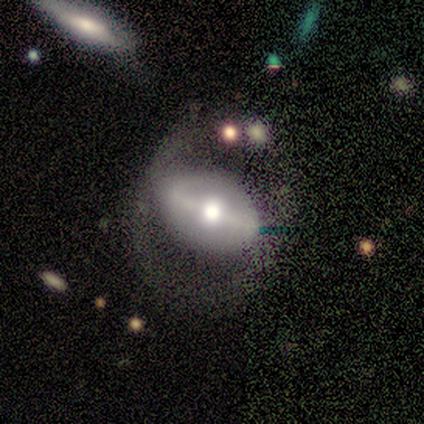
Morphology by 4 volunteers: smooth_or_featured: featured or disk (p=1.00)
disk_edge_on: no (p=1.00)
bar: strong (p=0.75) [alt: weak p=0.25]
has_spiral_arms: no (p=0.75) [alt: yes p=0.25]
bulge_size: moderate (p=0.75) [alt: small p=0.25]
merging: none (p=0.75) [alt: major disturbance p=0.25]